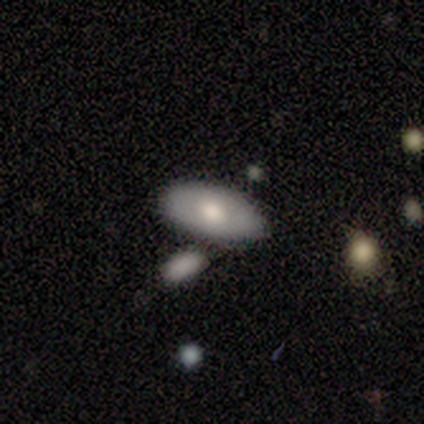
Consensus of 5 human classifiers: smooth 80%, featured or disk 20%, star or artifact 0%. Down the decision tree: how rounded — in between (100%); merging — none (80%).